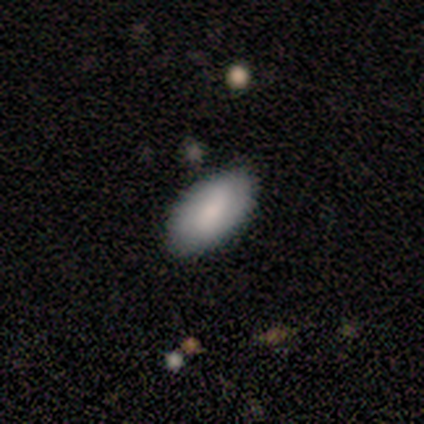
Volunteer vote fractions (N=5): Smooth or featured? 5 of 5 (100%) said smooth. How rounded? 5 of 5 (100%) said in between. Merging? 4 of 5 (80%) said none.